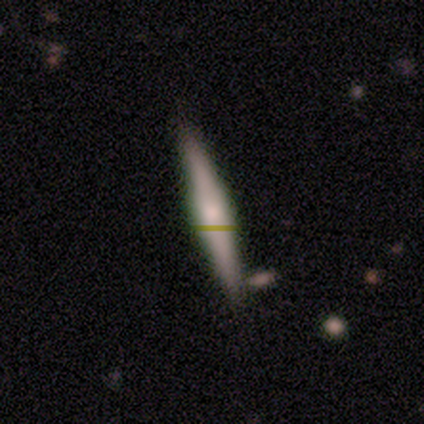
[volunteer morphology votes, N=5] A smooth galaxy with no disk features (80%) that is cigar-shaped (100%). Merging: none (100%).